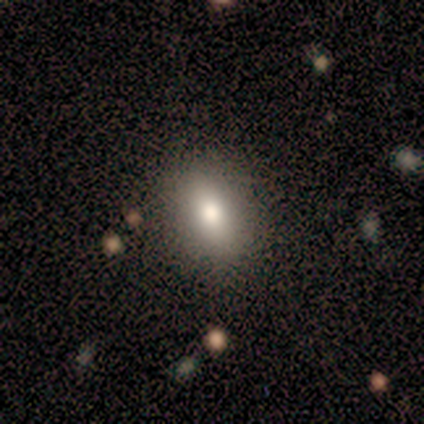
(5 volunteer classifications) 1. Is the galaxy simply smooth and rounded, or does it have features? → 60% smooth, 40% featured or disk, 0% star or artifact.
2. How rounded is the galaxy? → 67% in between, 33% round, 0% cigar-shaped.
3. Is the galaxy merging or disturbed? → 60% none, 40% major disturbance, 0% minor disturbance, 0% merger.